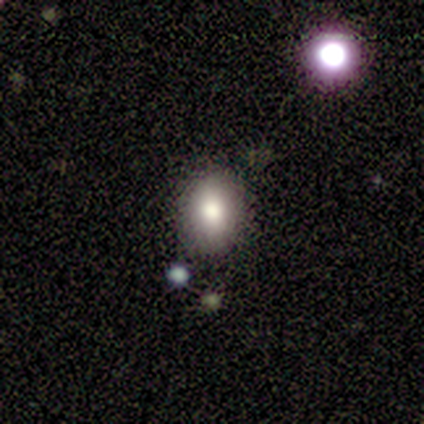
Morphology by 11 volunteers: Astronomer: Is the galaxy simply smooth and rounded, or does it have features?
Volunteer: smooth — 64%.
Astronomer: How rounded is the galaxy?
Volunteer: in between — 86%.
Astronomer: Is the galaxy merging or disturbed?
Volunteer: none — 78%.